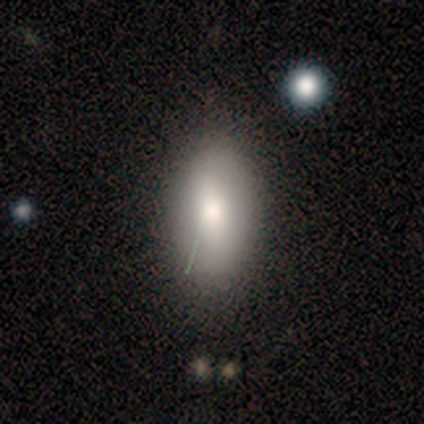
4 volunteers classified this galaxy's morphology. smooth-or-featured: smooth: 75% | featured or disk: 25% | star or artifact: 0%
  how-rounded: in between: 100% | round: 0% | cigar-shaped: 0%
  merging: none: 100% | minor disturbance: 0% | major disturbance: 0% | merger: 0%